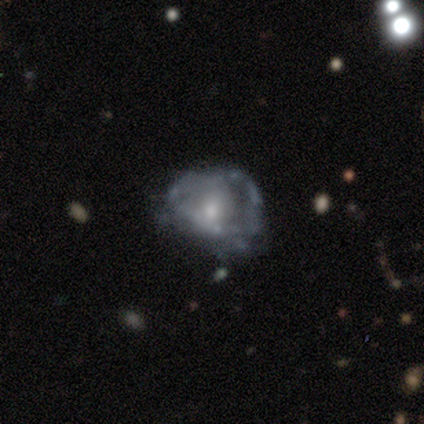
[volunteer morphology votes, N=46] featured or disk 70%, smooth 24%, star or artifact 7%. Down the decision tree: edge-on disk — no (100%); bar — no (94%); spiral arms — no (75%); bulge size — moderate (50%); merging — minor disturbance (42%).